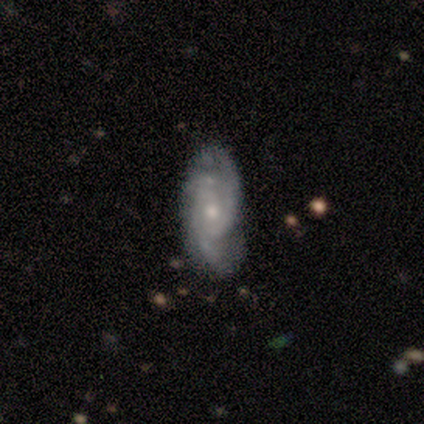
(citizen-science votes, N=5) Smooth or featured? 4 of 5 (80%) said featured or disk. Edge-on disk? 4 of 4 (100%) said no. Bar? 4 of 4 (100%) said no. Spiral arms? 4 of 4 (100%) said yes. Spiral winding? 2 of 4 (50%) said medium. Spiral arm count? 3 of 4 (75%) said 2. Bulge size? 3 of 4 (75%) said small. Merging? 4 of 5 (80%) said none.